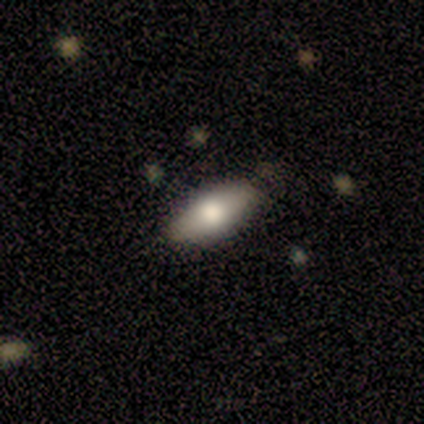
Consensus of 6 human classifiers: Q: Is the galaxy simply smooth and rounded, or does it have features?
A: smooth — 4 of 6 (67%).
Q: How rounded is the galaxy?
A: in between — 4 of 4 (100%).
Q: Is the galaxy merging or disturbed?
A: none — 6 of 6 (100%).